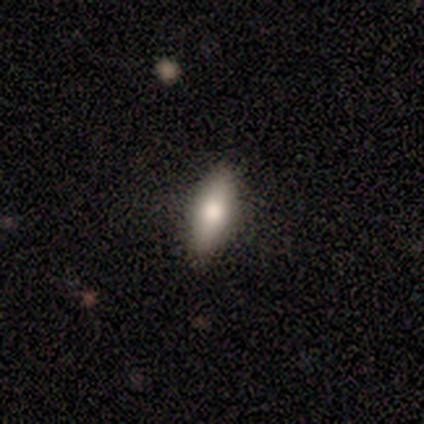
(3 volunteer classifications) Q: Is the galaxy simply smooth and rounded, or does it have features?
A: smooth — 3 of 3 (100%).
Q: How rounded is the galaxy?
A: in between — 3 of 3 (100%).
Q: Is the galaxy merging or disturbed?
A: none — 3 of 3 (100%).